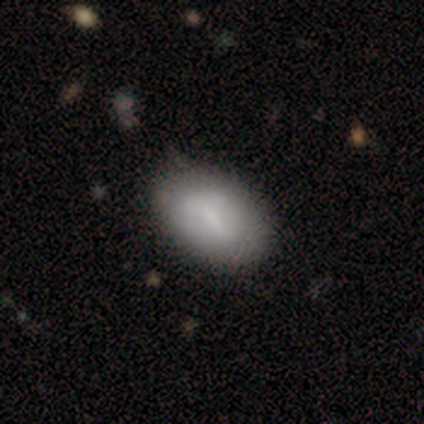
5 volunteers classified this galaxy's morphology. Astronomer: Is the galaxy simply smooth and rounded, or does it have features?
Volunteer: smooth — 80%.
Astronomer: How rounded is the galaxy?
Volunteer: in between — 100%.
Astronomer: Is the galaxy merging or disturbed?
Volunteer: none — 100%.